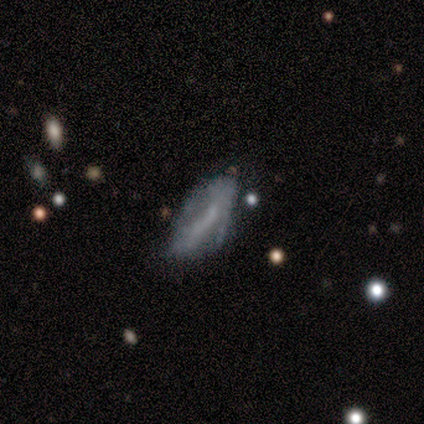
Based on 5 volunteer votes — Smooth or featured? 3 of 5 (60%) said featured or disk. Edge-on disk? 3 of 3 (100%) said no. Bar? 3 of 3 (100%) said no. Spiral arms? 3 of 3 (100%) said no. Bulge size? 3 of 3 (100%) said none. Merging? 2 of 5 (40%, tied with major disturbance) said none.